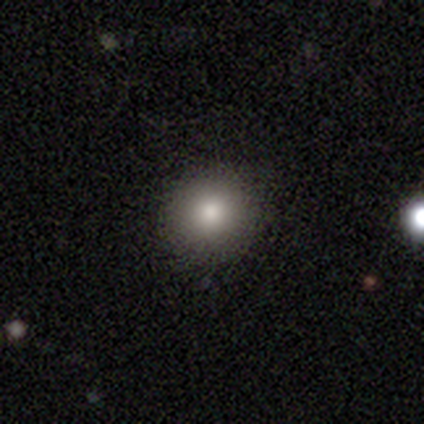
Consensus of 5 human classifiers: Smooth or featured?
  - smooth: 100% *
  - featured or disk: 0%
  - star or artifact: 0%
How rounded?
  - round: 80% *
  - in between: 20%
  - cigar-shaped: 0%
Merging?
  - none: 100% *
  - minor disturbance: 0%
  - major disturbance: 0%
  - merger: 0%